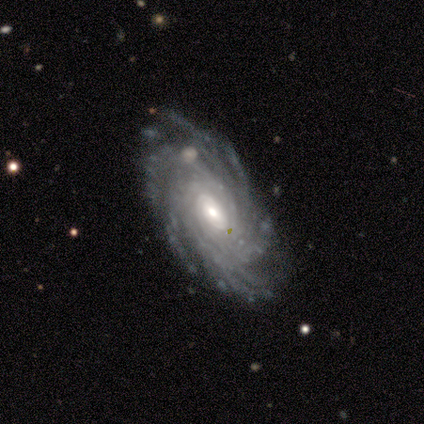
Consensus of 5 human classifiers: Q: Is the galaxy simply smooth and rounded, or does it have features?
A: featured or disk — 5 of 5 (100%).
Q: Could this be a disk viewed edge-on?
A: no — 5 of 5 (100%).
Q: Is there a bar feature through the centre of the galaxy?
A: no — 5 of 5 (100%).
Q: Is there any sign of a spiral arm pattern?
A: yes — 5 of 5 (100%).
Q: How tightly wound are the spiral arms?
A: tight — 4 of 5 (80%).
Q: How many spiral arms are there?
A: can't tell — 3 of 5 (60%).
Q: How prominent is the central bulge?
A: moderate — 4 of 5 (80%).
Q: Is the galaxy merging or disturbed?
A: none — 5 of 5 (100%).